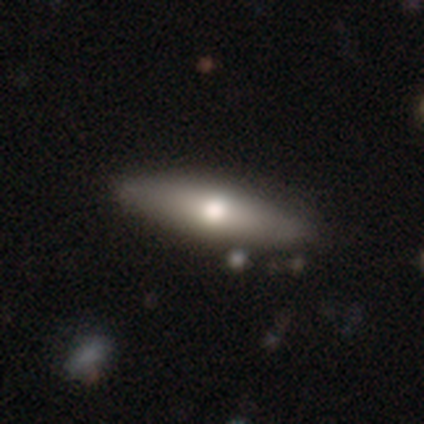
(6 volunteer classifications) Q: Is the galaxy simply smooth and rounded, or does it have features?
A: smooth — 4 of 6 (67%).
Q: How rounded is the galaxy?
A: in between — 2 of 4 (50%, tied with cigar-shaped).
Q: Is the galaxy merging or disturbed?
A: none — 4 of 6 (67%).